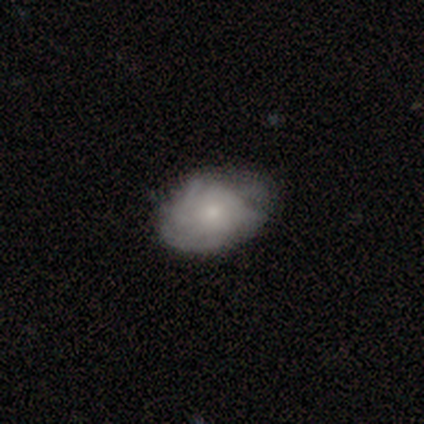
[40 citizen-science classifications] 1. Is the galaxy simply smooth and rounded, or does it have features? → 62% featured or disk, 38% smooth, 0% star or artifact.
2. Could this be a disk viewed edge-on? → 100% no, 0% yes.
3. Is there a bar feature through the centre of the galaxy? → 80% no, 20% weak, 0% strong.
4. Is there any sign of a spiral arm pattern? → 80% yes, 20% no.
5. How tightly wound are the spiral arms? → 55% tight, 40% medium, 5% loose.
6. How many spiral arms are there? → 55% can't tell, 25% more than 4, 5% 1, 5% 2, 5% 3, 5% 4.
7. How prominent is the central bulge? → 68% small, 20% moderate, 8% none, 4% dominant, 0% large.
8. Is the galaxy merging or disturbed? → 70% none, 28% minor disturbance, 2% major disturbance, 0% merger.